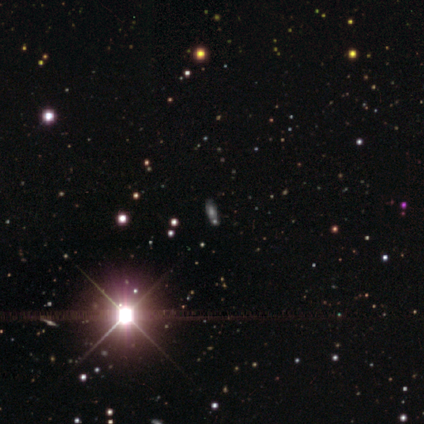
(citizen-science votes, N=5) A smooth galaxy with no disk features (40%, tied with star or artifact) that is in between round and cigar-shaped (100%). Merging: none (33%, tied with minor disturbance and merger).